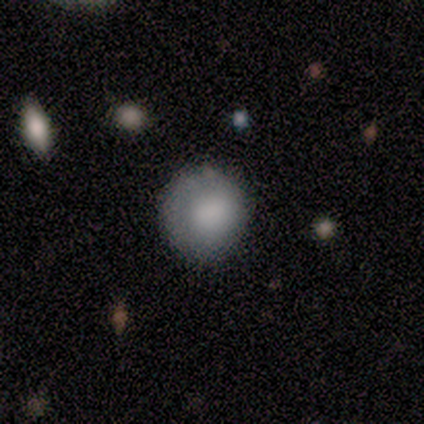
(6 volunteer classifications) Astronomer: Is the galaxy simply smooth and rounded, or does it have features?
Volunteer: smooth — 67%.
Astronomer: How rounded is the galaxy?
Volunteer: round — 100%.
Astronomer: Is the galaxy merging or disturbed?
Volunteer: none — 67%.